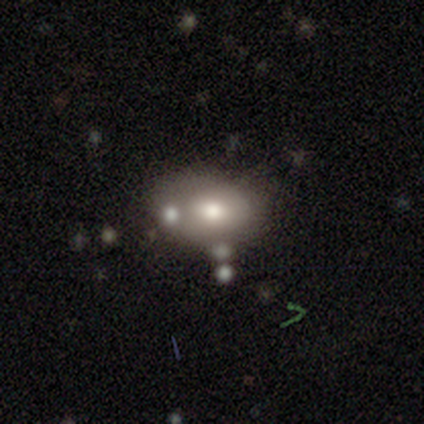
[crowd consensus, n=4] smooth_or_featured: smooth (p=1.00)
how_rounded: in between (p=1.00)
merging: none (p=0.50) [tied with: minor disturbance p=0.50]